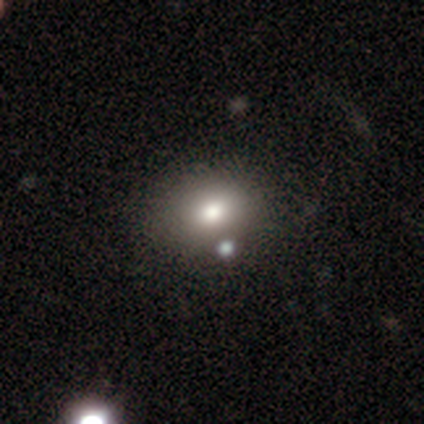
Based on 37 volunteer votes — Volunteers were most divided on "how rounded": in between: 62%, round: 38%, cigar-shaped: 0%. More confident: smooth or featured — smooth (65%); merging — none (59%).